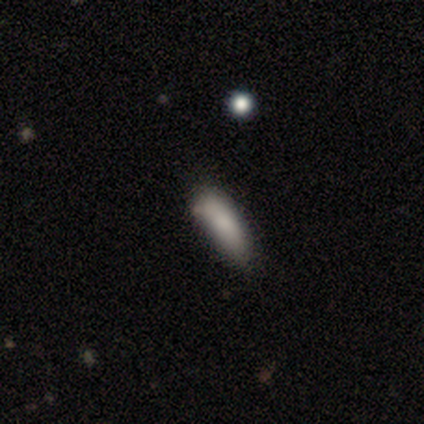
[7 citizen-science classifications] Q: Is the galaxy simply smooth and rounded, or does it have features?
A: smooth — 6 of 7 (86%).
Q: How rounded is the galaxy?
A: in between — 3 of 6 (50%, tied with cigar-shaped).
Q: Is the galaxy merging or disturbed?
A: none — 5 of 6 (83%).